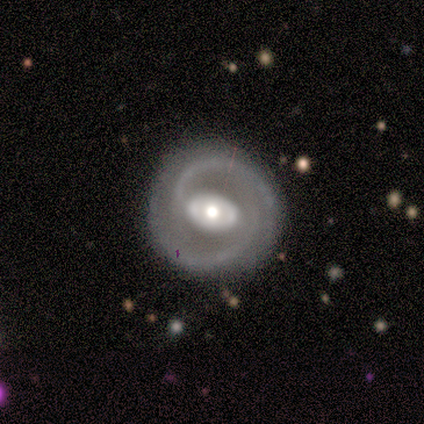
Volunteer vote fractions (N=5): Morphology: type=featured or disk (100%); edge-on=no (100%); bar=strong (40%, tied with no); spiral arms=yes (100%); winding=medium (60%); arm count=2 (80%); bulge=moderate (60%); merging=none (100%).